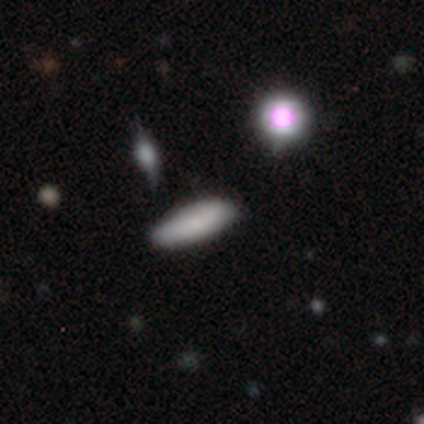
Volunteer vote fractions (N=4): This is likely a smooth galaxy (75%). How rounded: likely cigar-shaped (67%). Merging: clearly none (100%).